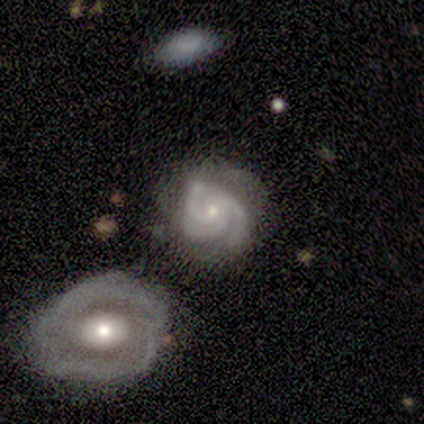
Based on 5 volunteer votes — Overall: featured or disk (100%). Edge-on disk: no (100%). Bar: no (80%). Spiral arms: yes (100%). Spiral arm count: 3 (100%). Spiral winding: tight (100%). Bulge size: small (60%; moderate 20%). Merging: none (60%; minor disturbance 20%).